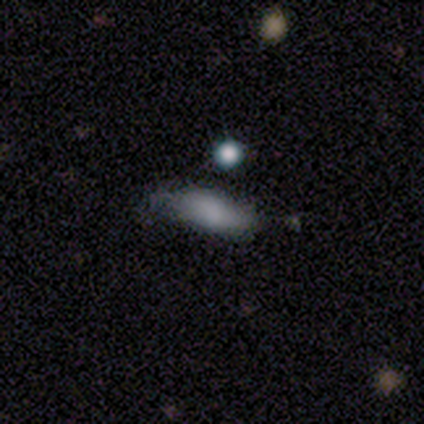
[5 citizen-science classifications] A smooth galaxy with no disk features (80%) that is in between round and cigar-shaped (50%, tied with cigar-shaped). Merging: none (75%).